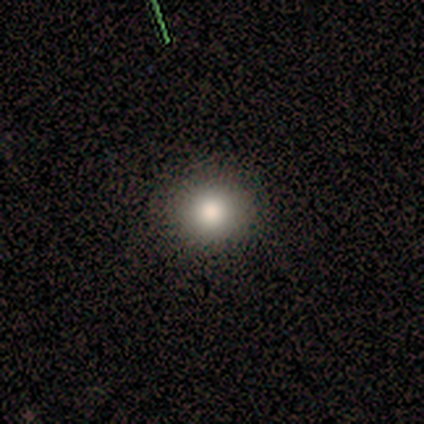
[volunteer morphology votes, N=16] This is likely a smooth galaxy (75%). How rounded: clearly round (83%). Merging: clearly none (100%).